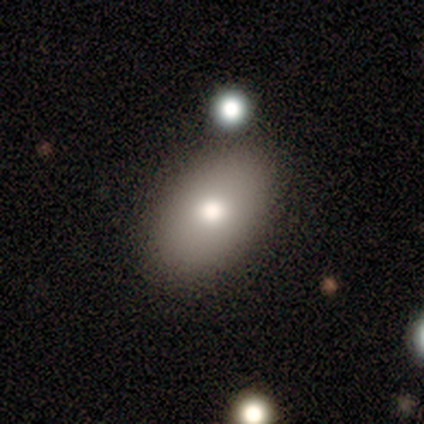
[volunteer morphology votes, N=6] Q: Smooth or featured?
A: smooth (83%); runner-up: featured or disk (17%)
Q: How rounded?
A: in between (100%)
Q: Merging?
A: none (83%); runner-up: merger (17%)